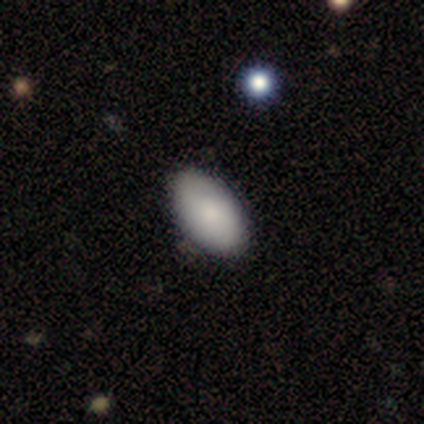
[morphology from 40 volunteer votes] Smooth or featured?
  - smooth: 88% *
  - featured or disk: 8%
  - star or artifact: 5%
How rounded?
  - in between: 97% *
  - round: 3%
  - cigar-shaped: 0%
Merging?
  - none: 55% *
  - minor disturbance: 3%
  - major disturbance: 3%
  - merger: 3%